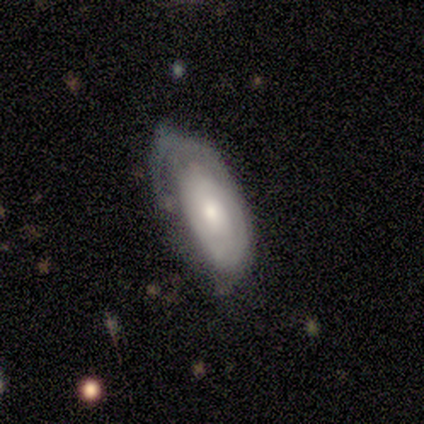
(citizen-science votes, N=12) smooth 50%, featured or disk 42%, star or artifact 8%. Down the decision tree: how rounded — in between (83%); merging — none (73%).